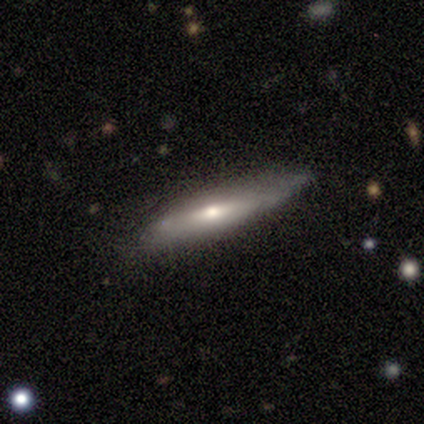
Smooth or featured? 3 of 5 (60%) said featured or disk. Edge-on disk? 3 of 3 (100%) said yes. Edge-on bulge? 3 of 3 (100%) said rounded. Merging? 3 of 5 (60%) said none.